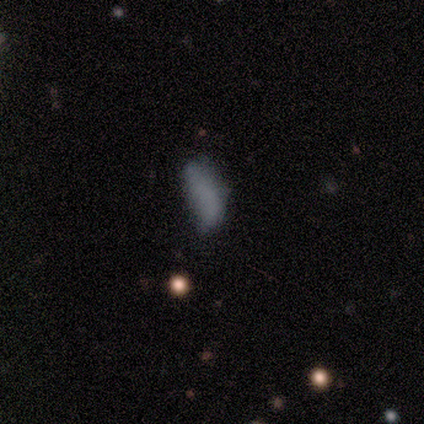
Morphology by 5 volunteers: Volunteers were most divided on "how rounded": in between: 60%, cigar-shaped: 40%, round: 0%. More confident: smooth or featured — smooth (100%); merging — none (60%).